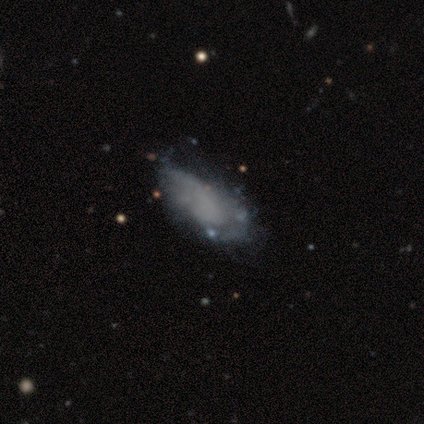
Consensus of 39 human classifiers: featured or disk 54%, smooth 33%, star or artifact 13%. Down the decision tree: edge-on disk — no (95%); bar — no (95%); spiral arms — no (90%); bulge size — none (95%); merging — minor disturbance (26%).